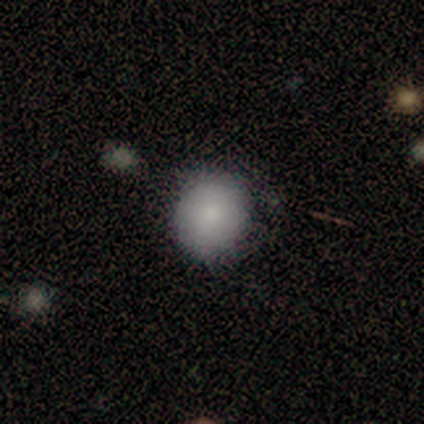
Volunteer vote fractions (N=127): This is clearly a smooth galaxy (86%). How rounded: clearly round (84%). Merging: likely none (78%).